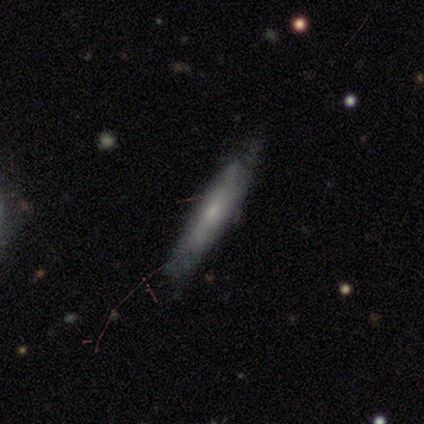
Morphology: type=featured or disk (75%); edge-on=yes (67%); edge-on bulge=none (50%, tied with rounded); merging=none (33%, tied with minor disturbance and major disturbance).